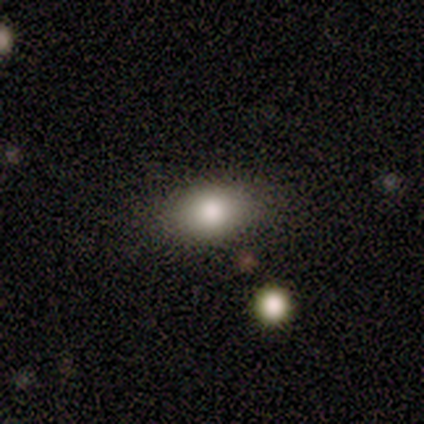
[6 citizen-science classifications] Smooth or featured? 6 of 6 (100%) said smooth. How rounded? 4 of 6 (67%) said in between. Merging? 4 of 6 (67%) said none.